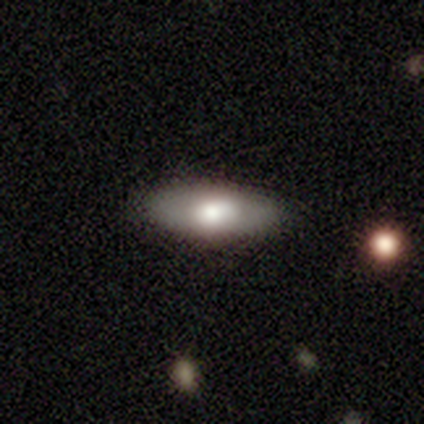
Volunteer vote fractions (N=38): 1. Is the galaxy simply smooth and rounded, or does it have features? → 66% smooth, 26% featured or disk, 8% star or artifact.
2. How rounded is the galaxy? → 68% in between, 24% cigar-shaped, 8% round.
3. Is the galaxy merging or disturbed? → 80% none, 17% minor disturbance, 3% merger, 0% major disturbance.